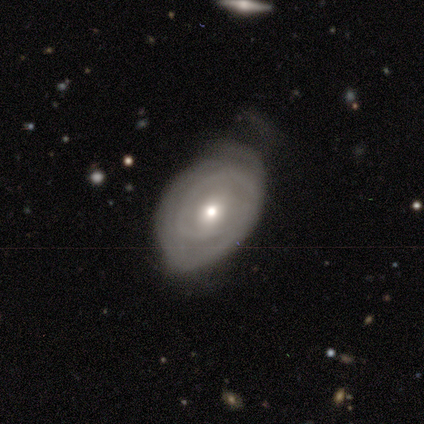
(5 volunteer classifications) Smooth or featured? featured or disk (80%)
Edge-on disk? no (100%)
Bar? weak (75%)
Spiral arms? yes (50%, tied with no)
Spiral winding? tight (100%)
Spiral arm count? 1 (100%)
Bulge size? moderate (50%, tied with small)
Merging? minor disturbance (100%)